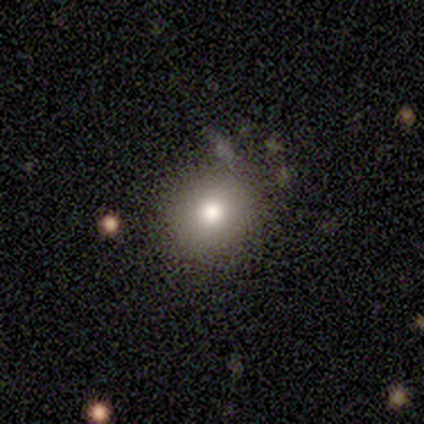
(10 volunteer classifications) smooth-or-featured: smooth: 90% | featured or disk: 10% | star or artifact: 0%
  how-rounded: round: 89% | in between: 11% | cigar-shaped: 0%
  merging: none: 60% | minor disturbance: 30% | merger: 10% | major disturbance: 0%